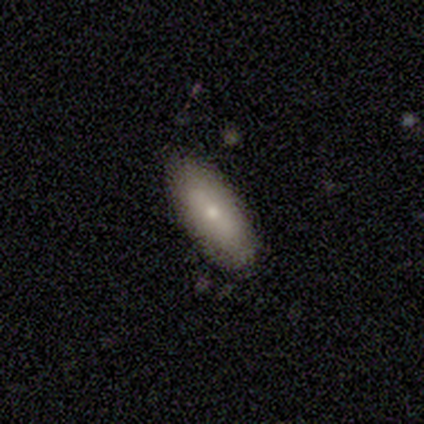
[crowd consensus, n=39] Smooth or featured? smooth (72%)
How rounded? in between (75%)
Merging? none (85%)